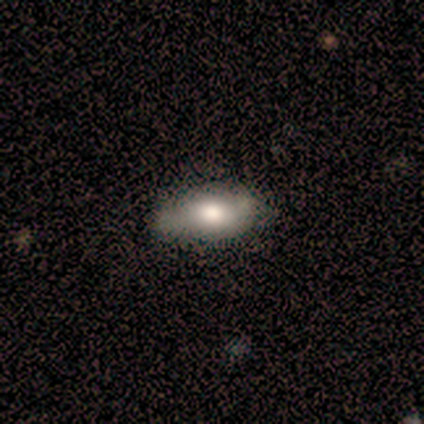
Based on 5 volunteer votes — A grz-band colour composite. It shows a smooth galaxy with no disk features (60%) that is in between round and cigar-shaped (67%). Merging: none (100%).